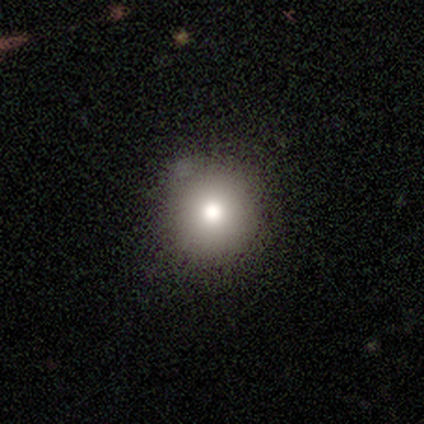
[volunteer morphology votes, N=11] A smooth galaxy with no disk features (64%) that is round (100%).

Vote fractions:
- Smooth or featured? smooth: 64% / featured or disk: 18% / star or artifact: 18%
- How rounded? round: 100% / in between: 0% / cigar-shaped: 0%
- Merging? none: 100% / minor disturbance: 0% / major disturbance: 0% / merger: 0%